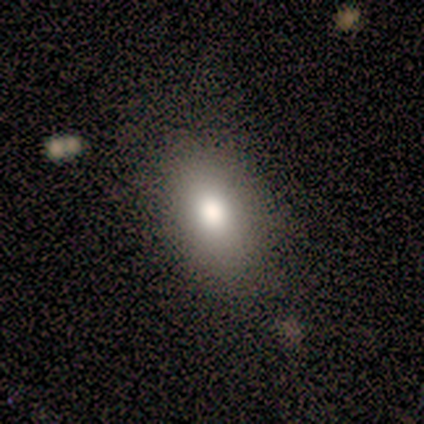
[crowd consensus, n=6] This appears to be a smooth galaxy with no disk features (83%) that is in between round and cigar-shaped (100%). Merging: none (67%).